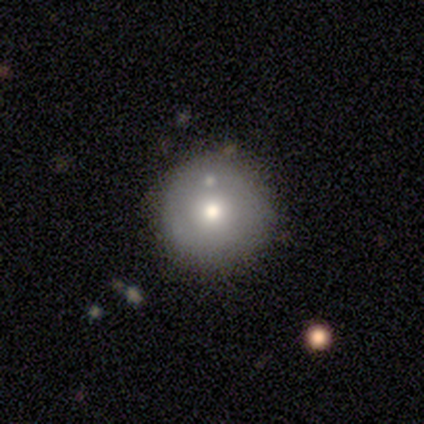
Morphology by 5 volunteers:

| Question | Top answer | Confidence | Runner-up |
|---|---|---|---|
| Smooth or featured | smooth | 60% | featured or disk (40%) |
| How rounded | round | 100% | — |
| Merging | none | 80% | merger (20%) |